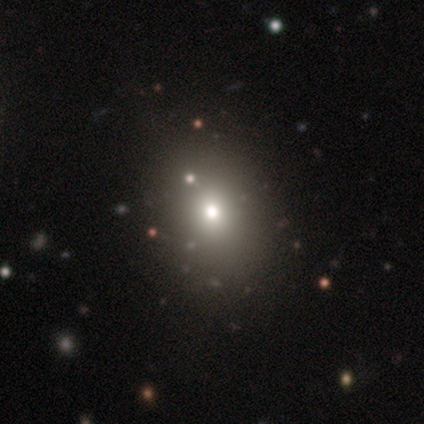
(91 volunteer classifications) Volunteers were most divided on "how rounded": in between: 54%, round: 46%, cigar-shaped: 0%. More confident: merging — none (85%); smooth or featured — smooth (62%).